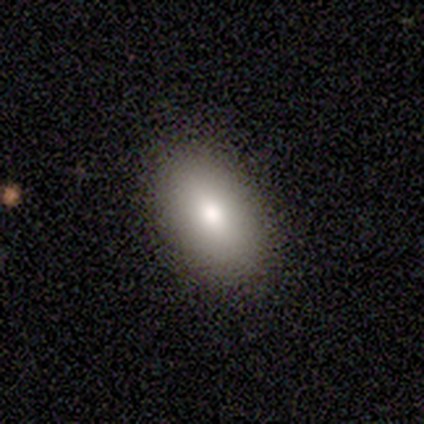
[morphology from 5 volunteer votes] Overall: smooth (80%). How rounded: in between (100%). Merging: none (60%; minor disturbance 40%).